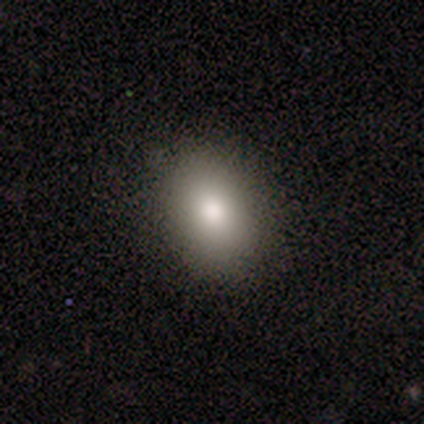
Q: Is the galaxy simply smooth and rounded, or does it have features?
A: smooth — 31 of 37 (84%).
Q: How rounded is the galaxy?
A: in between — 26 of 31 (84%).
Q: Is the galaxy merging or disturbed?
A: none — 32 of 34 (94%).